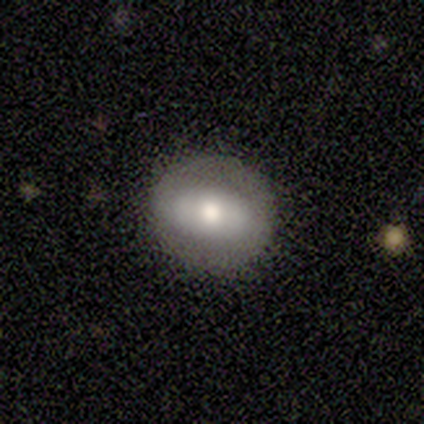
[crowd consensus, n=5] Overall: smooth (60%; featured or disk 40%). How rounded: round (100%). Merging: none (80%).